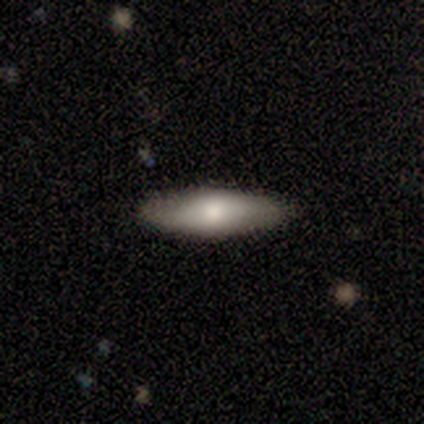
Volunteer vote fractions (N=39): Overall: smooth (72%). How rounded: in between (54%; cigar-shaped 43%). Merging: none (95%).